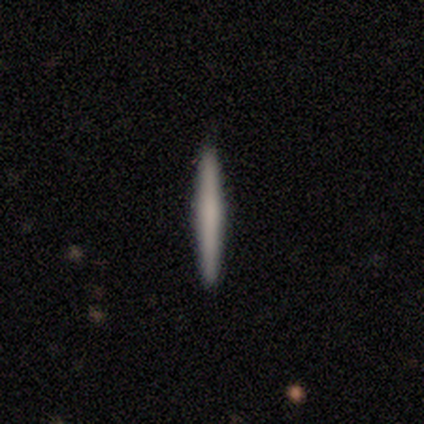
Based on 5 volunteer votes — Morphology: type=smooth (80%); roundness=cigar-shaped (100%); merging=none (100%).